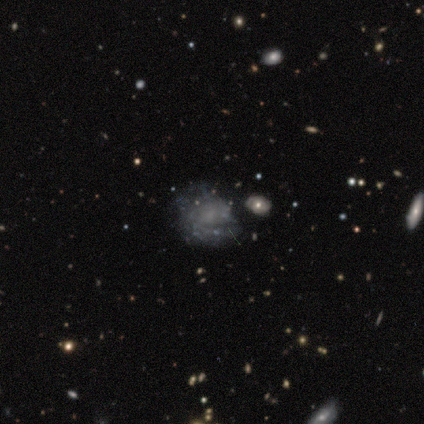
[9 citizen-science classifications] A featured or disk galaxy (56%) with no bar (80%), loose (50%) spiral arms (80%) and no central bulge (80%).

Vote fractions:
- Smooth or featured? featured or disk: 56% / smooth: 33% / star or artifact: 11%
- Edge-on disk? no: 100% / yes: 0%
- Bar? no: 80% / weak: 20% / strong: 0%
- Spiral arms? yes: 80% / no: 20%
- Spiral winding? loose: 50% / tight: 25% / medium: 25%
- Spiral arm count? can't tell: 50% / 2: 25% / 4: 25% / 1: 0% / 3: 0% / more than 4: 0%
- Bulge size? none: 80% / moderate: 20% / dominant: 0% / large: 0% / small: 0%
- Merging? none: 38% (tied) / major disturbance: 38% (tied) / minor disturbance: 12% / merger: 12%